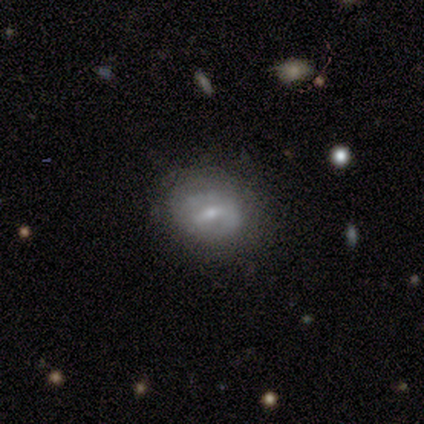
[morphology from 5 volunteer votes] Smooth or featured? smooth (80%)
How rounded? round (50%, tied with in between)
Merging? none (60%)